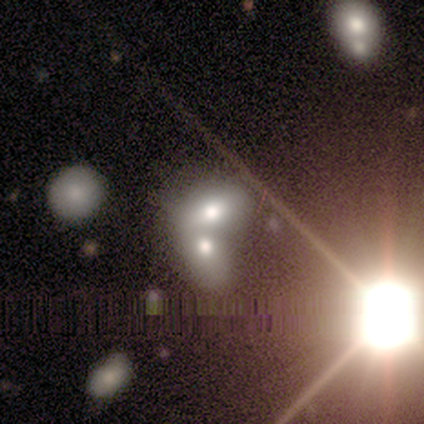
Overall: smooth (50%; star or artifact 30%). How rounded: in between (60%; round 40%). Merging: merger (86%).